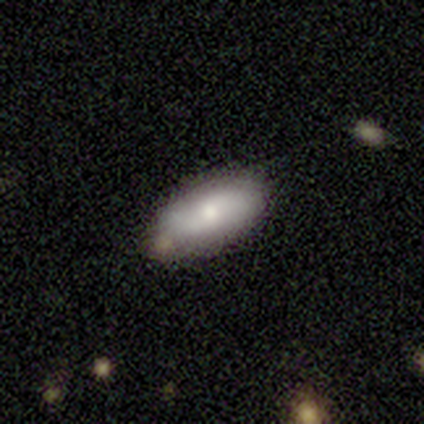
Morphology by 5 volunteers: smooth-or-featured: featured or disk: 80% | smooth: 20% | star or artifact: 0%
  disk-edge-on: no: 100% | yes: 0%
    bar: weak: 50% (tied) | no: 50% (tied) | strong: 0%
    has-spiral-arms: no: 75% | yes: 25%
    bulge-size: small: 50% | large: 25% | moderate: 25% | dominant: 0% | none: 0%
  merging: none: 80% | minor disturbance: 20% | major disturbance: 0% | merger: 0%